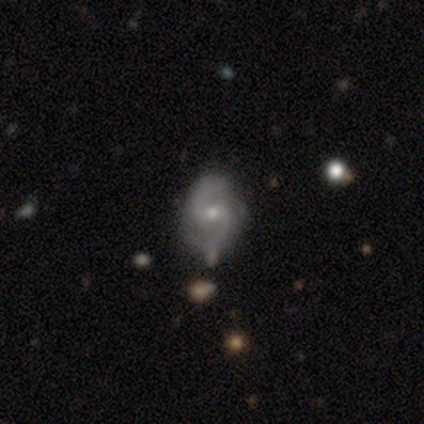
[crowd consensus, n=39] Smooth or featured? 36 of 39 (92%) said featured or disk. Edge-on disk? 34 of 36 (94%) said no. Bar? 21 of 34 (62%) said weak. Spiral arms? 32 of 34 (94%) said yes. Spiral winding? 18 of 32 (56%) said medium. Spiral arm count? 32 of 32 (100%) said 2. Bulge size? 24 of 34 (71%) said small. Merging? 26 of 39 (67%) said none.